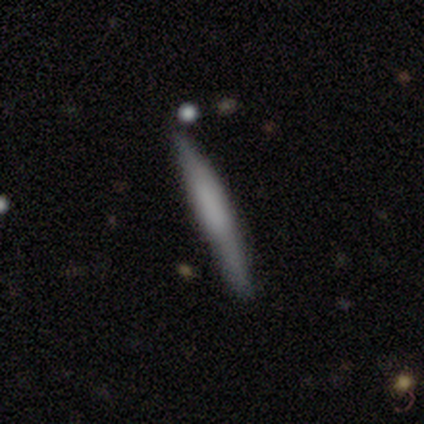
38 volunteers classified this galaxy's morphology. Smooth or featured? 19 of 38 (50%) said smooth. How rounded? 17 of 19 (89%) said cigar-shaped. Merging? 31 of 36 (86%) said none.